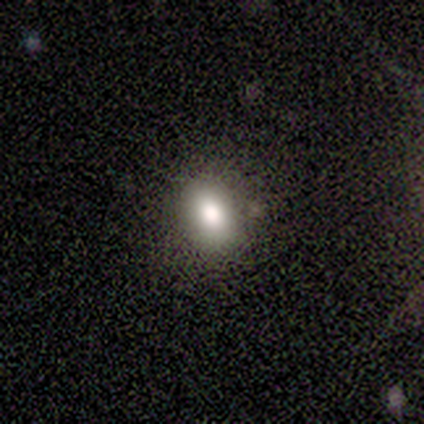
A smooth galaxy with no disk features (88%) that is round (50%, tied with in between). Merging: none (93%).